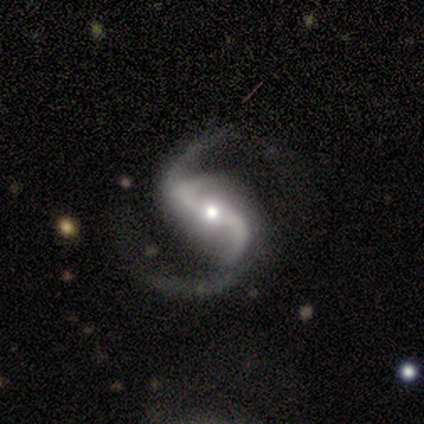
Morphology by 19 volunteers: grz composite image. It shows a featured or disk galaxy (100%) with a strong bar (44%), 2 (89%) loose (61%) spiral arms (100%) and a moderate central bulge (50%). Merging: none (79%).